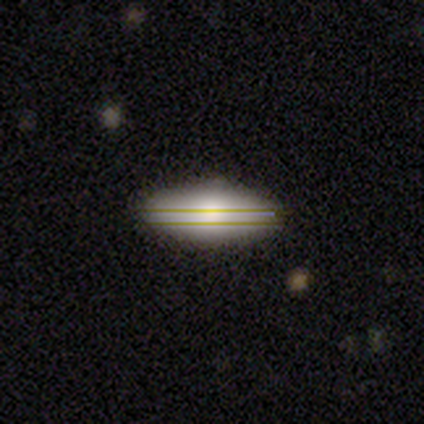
Q: Smooth or featured?
A: smooth (62%); runner-up: featured or disk (19%)
Q: How rounded?
A: in between (72%); runner-up: cigar-shaped (24%)
Q: Merging?
A: none (79%); runner-up: minor disturbance (18%)